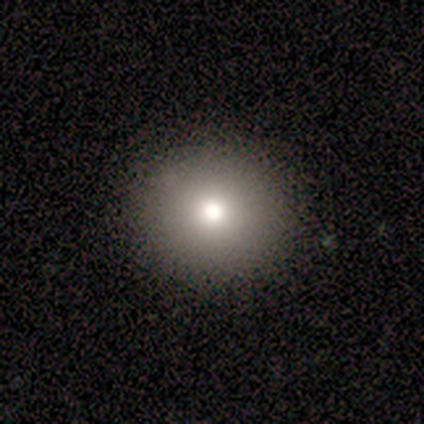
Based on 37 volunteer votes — A smooth galaxy with no disk features (68%) that is round (84%). Merging: none (91%).